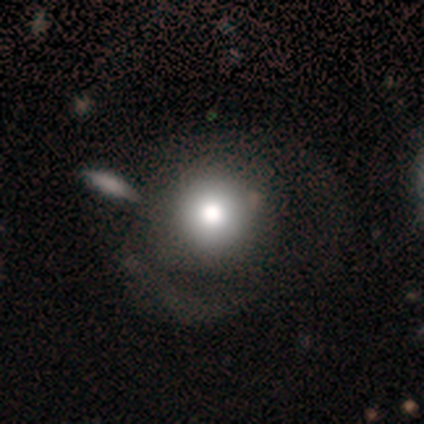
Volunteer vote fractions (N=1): Smooth or featured?
  - smooth: 100% *
  - featured or disk: 0%
  - star or artifact: 0%
How rounded?
  - round: 100% *
  - in between: 0%
  - cigar-shaped: 0%
Merging?
  - none: 100% *
  - minor disturbance: 0%
  - major disturbance: 0%
  - merger: 0%